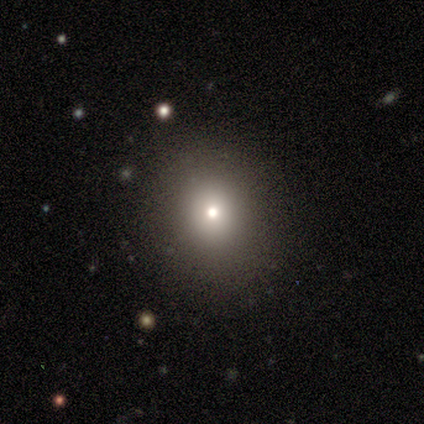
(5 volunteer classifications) smooth-or-featured: smooth: 100% | featured or disk: 0% | star or artifact: 0%
  how-rounded: round: 60% | in between: 40% | cigar-shaped: 0%
  merging: none: 100% | minor disturbance: 0% | major disturbance: 0% | merger: 0%